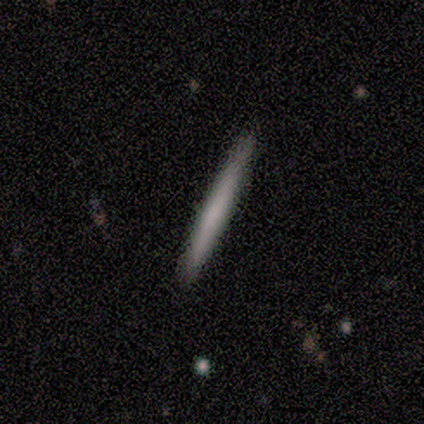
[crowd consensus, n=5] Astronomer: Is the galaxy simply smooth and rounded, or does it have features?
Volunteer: smooth — 80%.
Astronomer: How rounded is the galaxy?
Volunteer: cigar-shaped — 100%.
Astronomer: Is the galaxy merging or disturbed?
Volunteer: none — 100%.